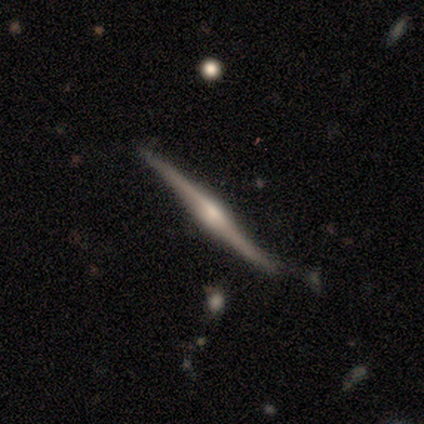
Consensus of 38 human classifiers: Smooth or featured?
  - featured or disk: 87% *
  - smooth: 11%
  - star or artifact: 3%
Edge-on disk?
  - yes: 100% *
  - no: 0%
Edge-on bulge?
  - rounded: 91% *
  - none: 6%
  - boxy: 3%
Merging?
  - none: 78% *
  - minor disturbance: 16%
  - merger: 5%
  - major disturbance: 0%